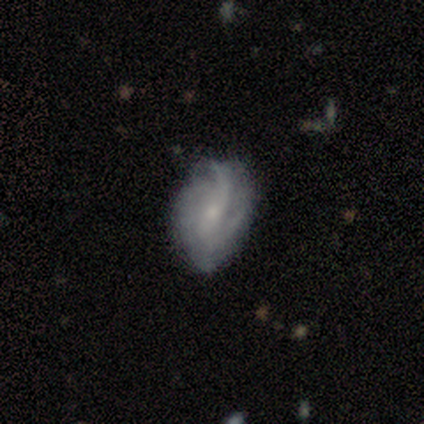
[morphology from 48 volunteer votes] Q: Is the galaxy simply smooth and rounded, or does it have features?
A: featured or disk — 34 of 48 (71%).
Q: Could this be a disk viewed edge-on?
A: no — 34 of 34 (100%).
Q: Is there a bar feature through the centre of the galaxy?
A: weak — 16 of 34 (47%).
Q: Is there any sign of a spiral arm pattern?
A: yes — 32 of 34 (94%).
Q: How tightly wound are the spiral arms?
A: medium — 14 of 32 (44%).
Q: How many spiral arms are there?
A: can't tell — 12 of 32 (38%).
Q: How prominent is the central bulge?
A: small — 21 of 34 (62%).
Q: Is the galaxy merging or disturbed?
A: minor disturbance — 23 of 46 (50%).